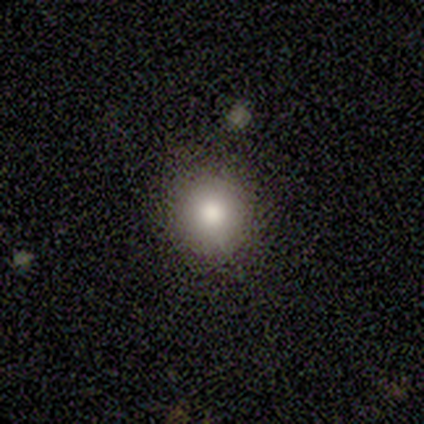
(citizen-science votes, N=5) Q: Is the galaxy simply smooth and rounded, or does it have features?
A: smooth — 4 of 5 (80%).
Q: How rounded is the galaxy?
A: round — 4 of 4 (100%).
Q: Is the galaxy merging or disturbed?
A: none — 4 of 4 (100%).